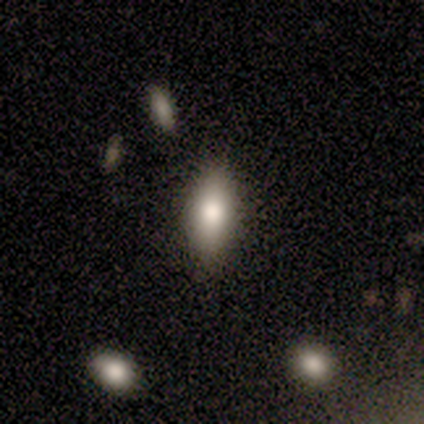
smooth_or_featured: smooth (p=0.81) [alt: featured or disk p=0.16]
how_rounded: in between (p=0.86) [alt: cigar-shaped p=0.11]
merging: none (p=0.88) [alt: minor disturbance p=0.07]